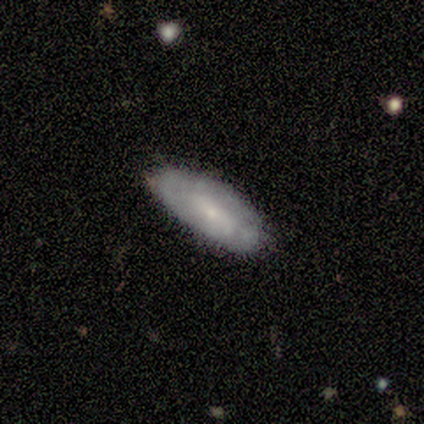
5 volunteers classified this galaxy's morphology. Smooth or featured? smooth (80%)
How rounded? in between (75%)
Merging? none (80%)